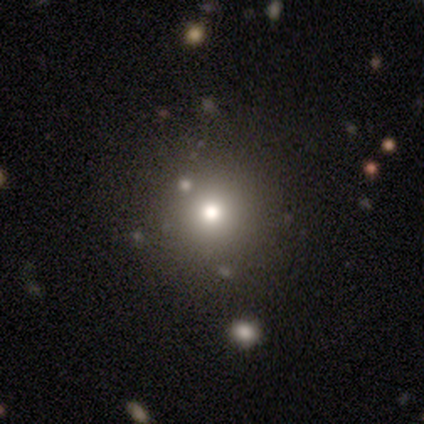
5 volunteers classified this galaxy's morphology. Smooth or featured?
  - star or artifact: 60% *
  - smooth: 40%
  - featured or disk: 0%